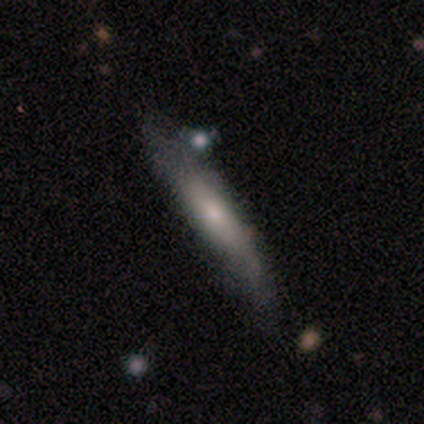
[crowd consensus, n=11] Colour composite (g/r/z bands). It shows a featured or disk galaxy (73%) viewed edge-on (88%) with no central bulge (43%, tied with rounded). Merging: none (73%).